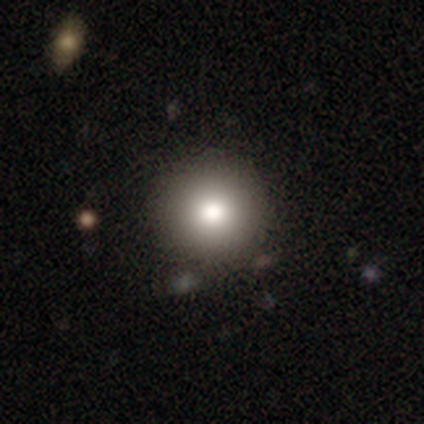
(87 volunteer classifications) This is clearly a smooth galaxy (80%). How rounded: clearly round (99%). Merging: clearly none (87%).